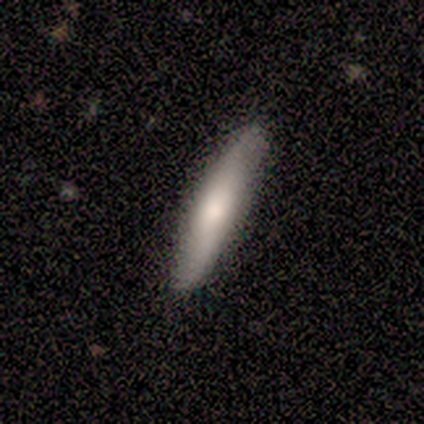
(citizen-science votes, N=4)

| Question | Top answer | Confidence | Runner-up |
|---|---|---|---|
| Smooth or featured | smooth | 50% | tied: featured or disk (50%) |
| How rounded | cigar-shaped | 100% | — |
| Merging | none | 75% | minor disturbance (25%) |